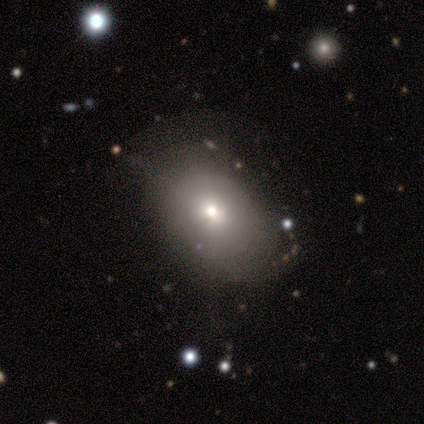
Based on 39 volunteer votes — A smooth galaxy with no disk features (62%) that is in between round and cigar-shaped (79%).

Vote fractions:
- Smooth or featured? smooth: 62% / featured or disk: 26% / star or artifact: 13%
- How rounded? in between: 79% / round: 21% / cigar-shaped: 0%
- Merging? none: 47% / minor disturbance: 44% / major disturbance: 9% / merger: 0%